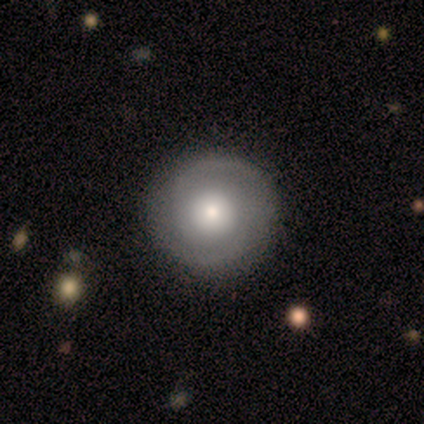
Morphology: type=featured or disk (60%); edge-on=no (100%); bar=no (100%); spiral arms=yes (67%); winding=tight (50%, tied with loose); arm count=2 (50%, tied with can't tell); bulge=large (33%, tied with moderate and small); merging=none (100%).